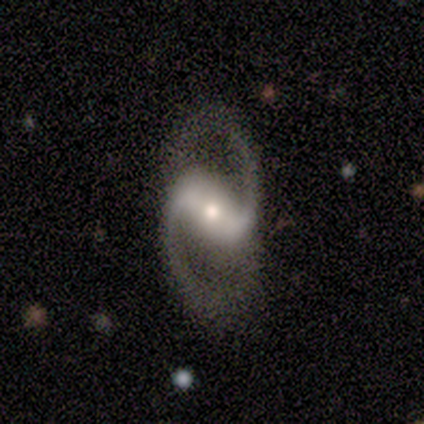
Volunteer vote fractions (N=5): Volunteers were most divided on "spiral winding": medium: 60%, loose: 40%, tight: 0%. More confident: smooth or featured — featured or disk (100%); edge-on disk — no (100%); bar — strong (100%); spiral arms — yes (100%); spiral arm count — 2 (100%); merging — none (100%); bulge size — moderate (80%).